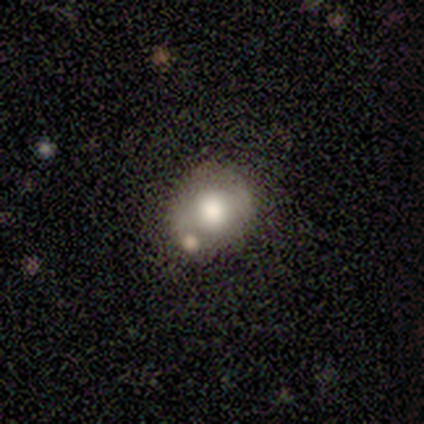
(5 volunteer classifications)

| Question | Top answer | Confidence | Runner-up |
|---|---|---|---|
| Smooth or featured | smooth | 60% | featured or disk (20%) |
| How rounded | in between | 67% | round (33%) |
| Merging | none | 50% | tied: minor disturbance (50%) |